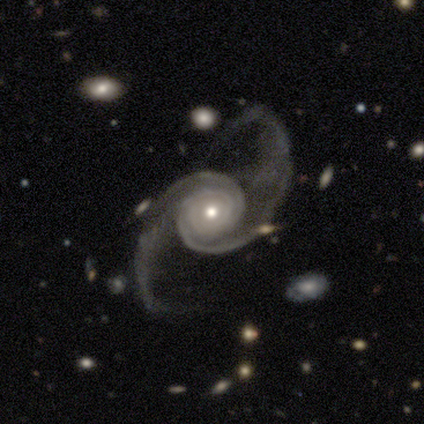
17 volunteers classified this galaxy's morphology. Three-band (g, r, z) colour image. It shows a featured or disk galaxy (100%) with no bar (71%), 2 (81%) tight (50%) spiral arms (94%) and a moderate central bulge (65%). Merging: none (65%).